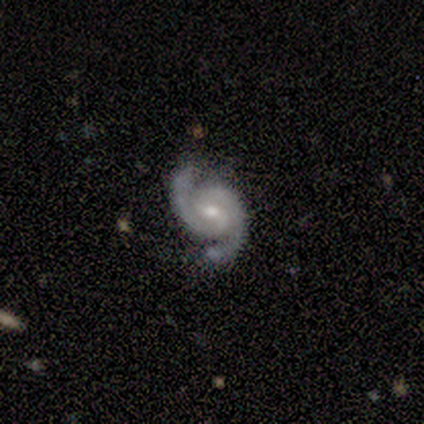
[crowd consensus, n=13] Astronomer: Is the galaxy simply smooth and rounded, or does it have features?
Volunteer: featured or disk — 92%.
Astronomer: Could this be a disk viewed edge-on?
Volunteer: no — 100%.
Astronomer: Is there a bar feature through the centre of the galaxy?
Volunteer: weak — 50% (runner-up: no, 33%).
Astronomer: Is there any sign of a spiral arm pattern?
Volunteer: yes — 100%.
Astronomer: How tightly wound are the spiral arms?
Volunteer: medium — 50% (runner-up: tight, 42%).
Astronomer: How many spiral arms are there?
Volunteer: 2 — 100%.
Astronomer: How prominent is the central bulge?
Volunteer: moderate — 50% (runner-up: small, 42%).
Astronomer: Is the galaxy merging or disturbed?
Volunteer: none — 100%.